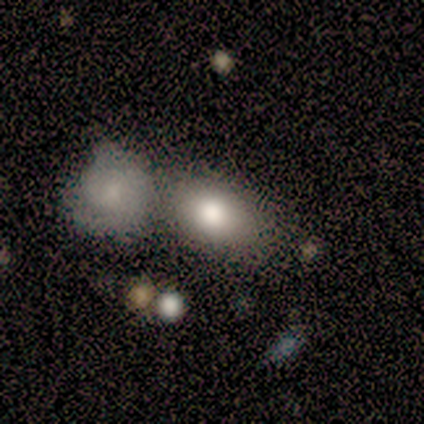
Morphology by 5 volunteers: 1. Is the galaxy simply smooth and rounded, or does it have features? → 40% smooth (tied), 40% featured or disk (tied), 20% star or artifact.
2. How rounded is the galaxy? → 50% round (tied), 50% in between (tied), 0% cigar-shaped.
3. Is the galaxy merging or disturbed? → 50% none (tied), 50% merger (tied), 0% minor disturbance, 0% major disturbance.